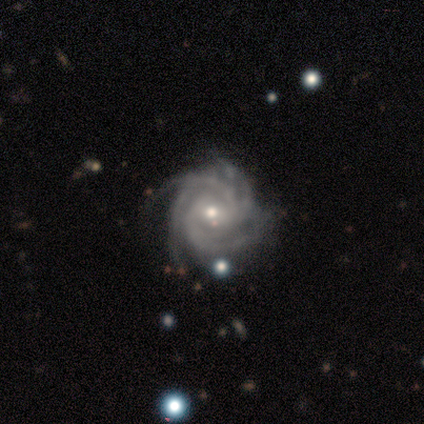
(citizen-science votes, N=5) Smooth or featured? 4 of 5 (80%) said featured or disk. Edge-on disk? 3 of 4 (75%) said no. Bar? 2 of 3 (67%) said no. Spiral arms? 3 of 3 (100%) said yes. Spiral winding? 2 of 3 (67%) said tight. Spiral arm count? 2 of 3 (67%) said 4. Bulge size? 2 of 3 (67%) said small. Merging? 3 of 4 (75%) said none.